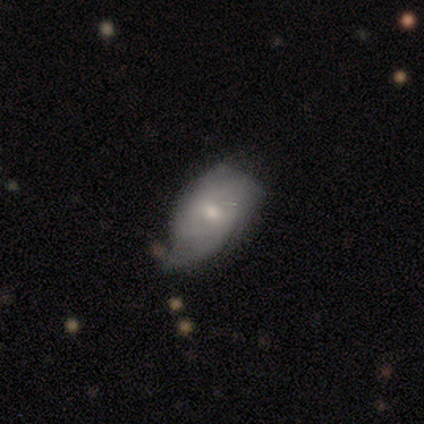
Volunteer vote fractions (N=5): featured or disk 80%, smooth 20%, star or artifact 0%. Down the decision tree: edge-on disk — no (100%); bar — no (75%); spiral arms — yes (50%, tied with no); spiral arm count — 3 (50%, tied with can't tell); spiral winding — tight (50%, tied with medium); bulge size — small (50%); merging — minor disturbance (60%).